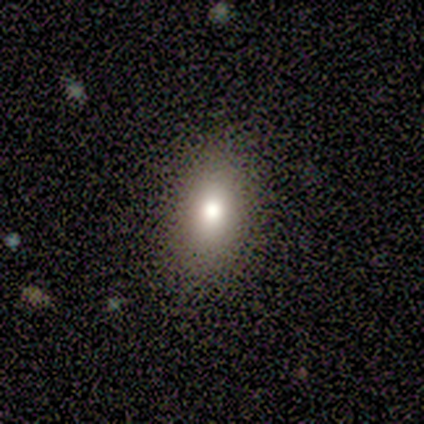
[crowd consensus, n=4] Volunteers were most divided on "how rounded": in between: 67%, cigar-shaped: 33%, round: 0%. More confident: merging — none (100%); smooth or featured — smooth (75%).